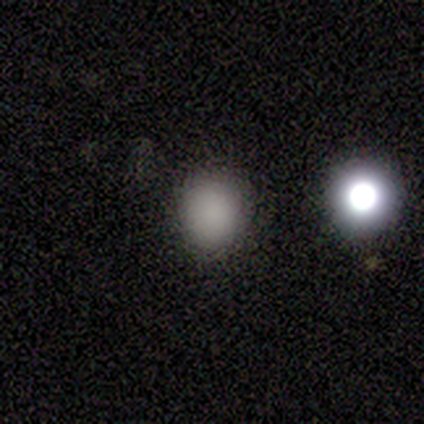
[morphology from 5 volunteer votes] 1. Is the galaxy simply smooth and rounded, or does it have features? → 100% smooth, 0% featured or disk, 0% star or artifact.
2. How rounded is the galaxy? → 80% round, 20% in between, 0% cigar-shaped.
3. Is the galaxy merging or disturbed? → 80% none, 20% minor disturbance, 0% major disturbance, 0% merger.